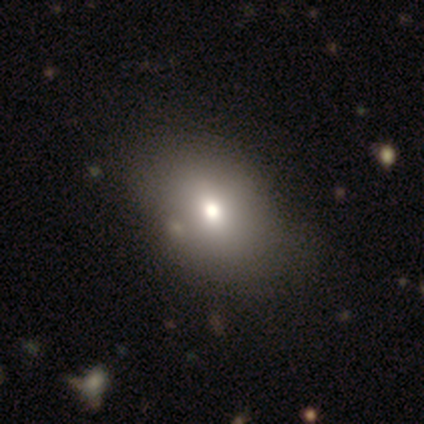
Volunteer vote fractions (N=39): Morphology: type=smooth (64%); roundness=in between (88%); merging=none (58%).